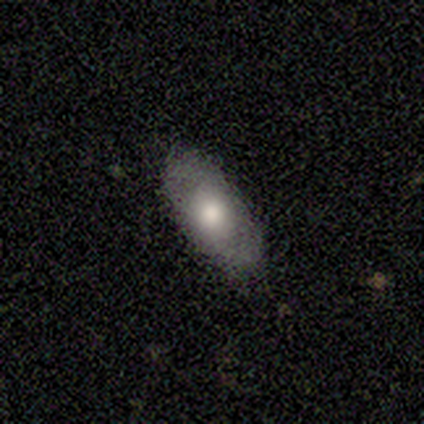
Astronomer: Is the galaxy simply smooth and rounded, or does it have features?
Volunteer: smooth — 50%, tied with featured or disk at 50%.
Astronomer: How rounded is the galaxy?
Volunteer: in between — 100%.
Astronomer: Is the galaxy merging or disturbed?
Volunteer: none — 83%.